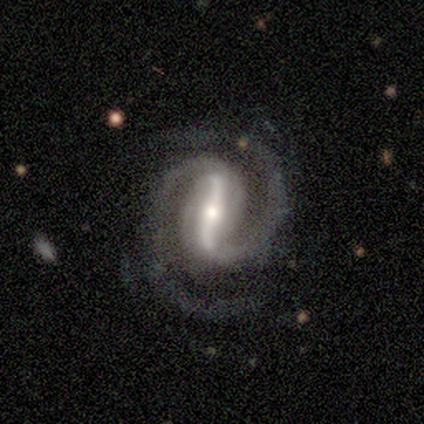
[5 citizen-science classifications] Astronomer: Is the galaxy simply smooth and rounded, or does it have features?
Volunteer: featured or disk — 100%.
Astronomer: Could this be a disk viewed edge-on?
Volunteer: no — 100%.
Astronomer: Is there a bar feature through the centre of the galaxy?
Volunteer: strong — 80%.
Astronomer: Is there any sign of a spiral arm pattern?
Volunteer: yes — 100%.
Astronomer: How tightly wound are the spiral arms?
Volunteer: tight — 80%.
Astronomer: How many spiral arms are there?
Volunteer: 2 — 80%.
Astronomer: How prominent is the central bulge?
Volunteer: moderate — 60%.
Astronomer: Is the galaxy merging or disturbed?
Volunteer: none — 80%.